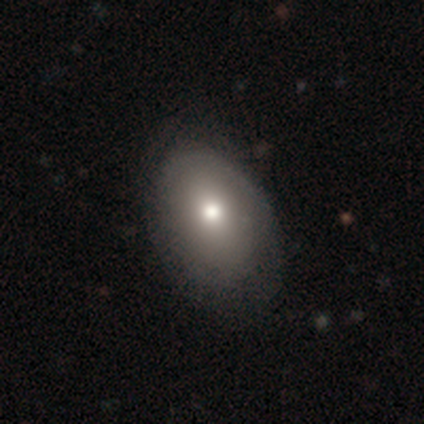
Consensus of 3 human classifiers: smooth-or-featured: smooth: 67% | featured or disk: 33% | star or artifact: 0%
  how-rounded: in between: 100% | round: 0% | cigar-shaped: 0%
  merging: none: 67% | minor disturbance: 33% | major disturbance: 0% | merger: 0%